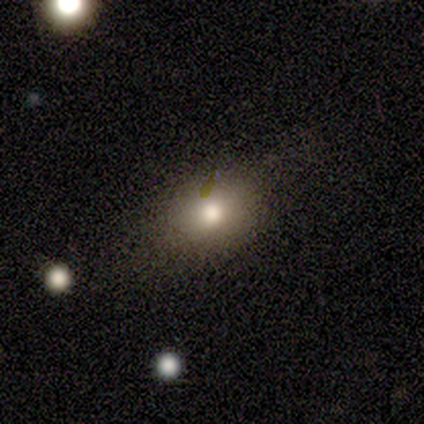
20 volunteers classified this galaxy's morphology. Smooth or featured?
  - smooth: 75% *
  - featured or disk: 25%
  - star or artifact: 0%
How rounded?
  - in between: 73% *
  - round: 27%
  - cigar-shaped: 0%
Merging?
  - none: 70% *
  - minor disturbance: 30%
  - major disturbance: 0%
  - merger: 0%